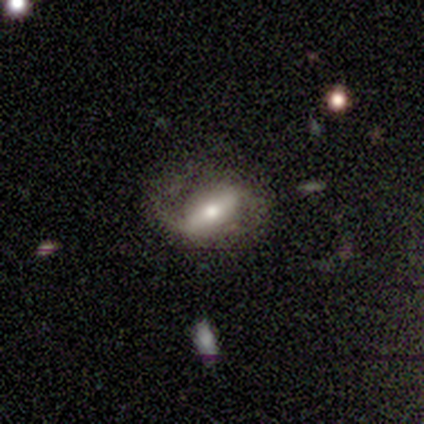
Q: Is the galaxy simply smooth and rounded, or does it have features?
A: featured or disk — 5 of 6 (83%).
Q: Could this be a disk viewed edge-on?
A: no — 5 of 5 (100%).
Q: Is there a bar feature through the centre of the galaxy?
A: strong — 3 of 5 (60%).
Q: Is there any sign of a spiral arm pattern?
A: yes — 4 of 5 (80%).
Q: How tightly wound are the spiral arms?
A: loose — 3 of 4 (75%).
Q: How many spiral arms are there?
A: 2 — 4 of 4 (100%).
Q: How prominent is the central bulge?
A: small — 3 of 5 (60%).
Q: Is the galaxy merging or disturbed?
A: none — 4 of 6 (67%).